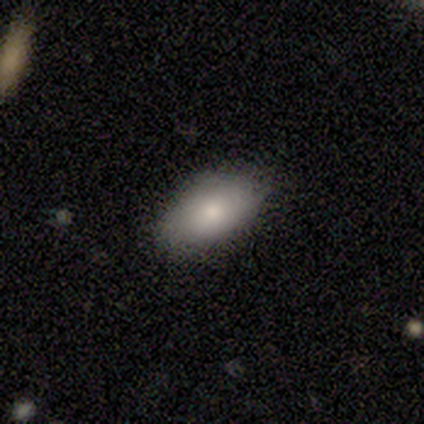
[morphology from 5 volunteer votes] Volunteers were most divided on "smooth or featured": smooth: 80%, featured or disk: 20%, star or artifact: 0%. More confident: how rounded — in between (100%); merging — none (100%).